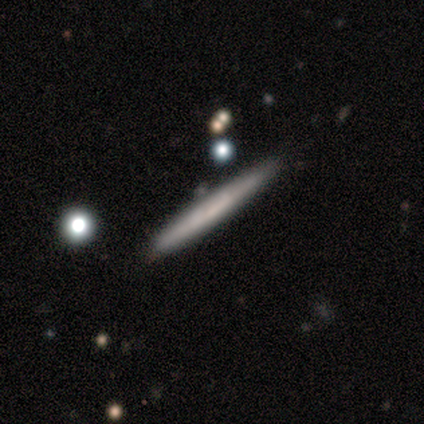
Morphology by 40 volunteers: A featured or disk galaxy (62%) viewed edge-on (100%) with no central bulge (84%). Merging: none (82%).